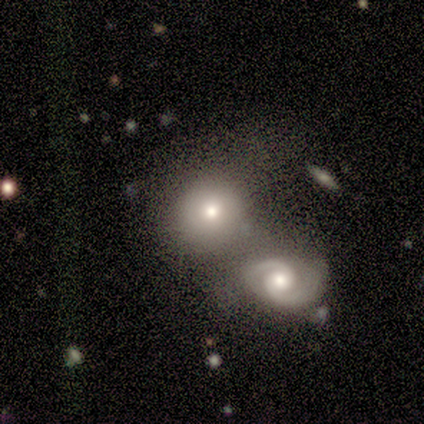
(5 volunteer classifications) This appears to be a featured or disk galaxy (60%) with no bar (67%), 2 (100%) medium (50%, tied with loose) spiral arms (67%) and a moderate central bulge (100%). Merging: merger (60%).